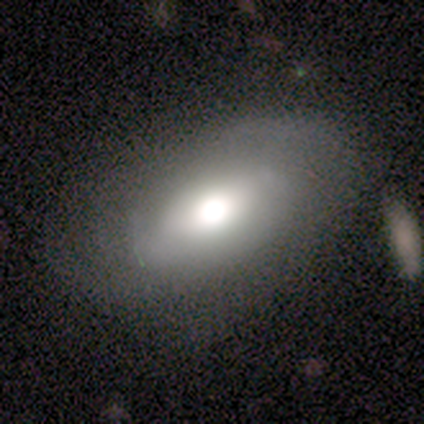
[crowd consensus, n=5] This is likely a smooth galaxy (60%). How rounded: clearly in between (100%). Merging: clearly none (80%).